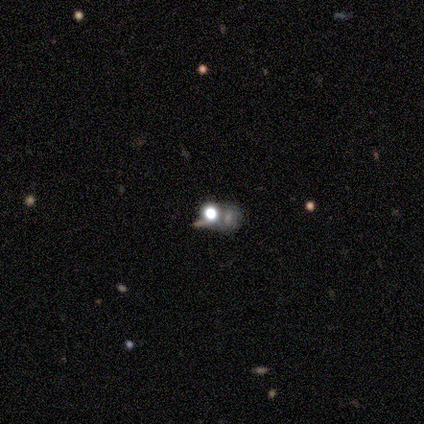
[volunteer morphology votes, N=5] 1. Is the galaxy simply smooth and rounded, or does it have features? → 60% smooth, 20% featured or disk, 20% star or artifact.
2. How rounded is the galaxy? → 100% round, 0% in between, 0% cigar-shaped.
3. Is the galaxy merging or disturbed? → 50% none, 25% minor disturbance, 25% merger, 0% major disturbance.